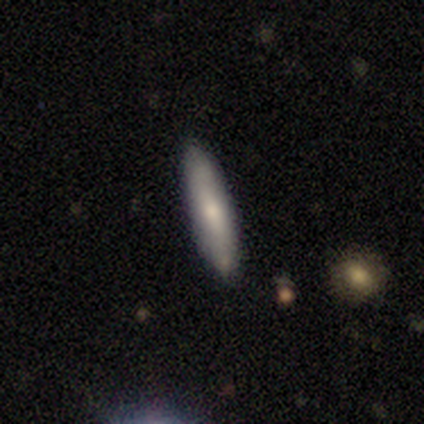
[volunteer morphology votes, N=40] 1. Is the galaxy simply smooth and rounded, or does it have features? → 62% smooth, 30% featured or disk, 8% star or artifact.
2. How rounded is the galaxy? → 88% cigar-shaped, 12% in between, 0% round.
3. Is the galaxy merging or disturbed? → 92% none, 5% minor disturbance, 3% merger, 0% major disturbance.